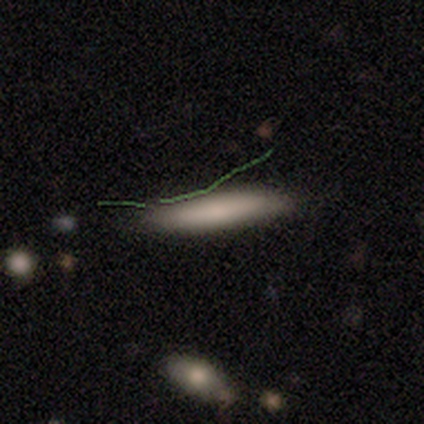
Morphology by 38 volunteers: Smooth or featured? 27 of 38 (71%) said smooth. How rounded? 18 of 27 (67%) said cigar-shaped. Merging? 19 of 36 (53%) said none.